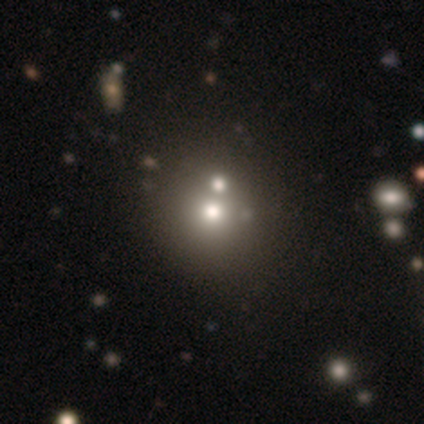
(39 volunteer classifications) This is likely a smooth galaxy (69%). How rounded: clearly round (93%). Merging: marginally none (41%).